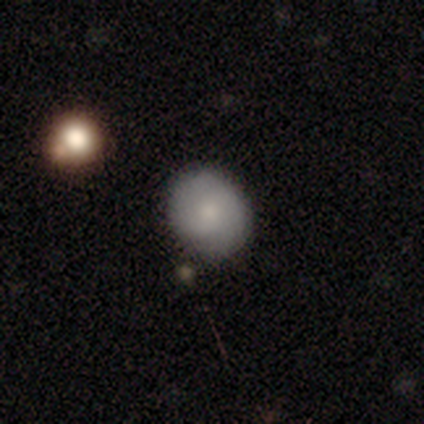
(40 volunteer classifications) Smooth or featured?
  - smooth: 68% *
  - star or artifact: 18%
  - featured or disk: 15%
How rounded?
  - round: 63% *
  - in between: 37%
  - cigar-shaped: 0%
Merging?
  - none: 88% *
  - minor disturbance: 6%
  - merger: 6%
  - major disturbance: 0%